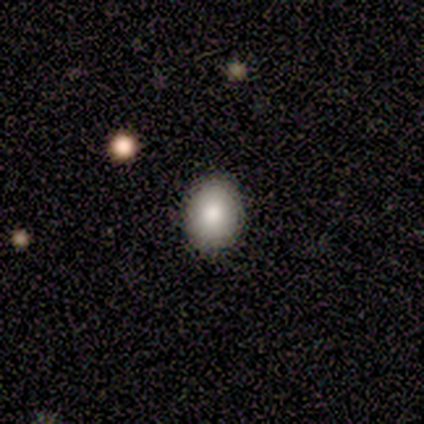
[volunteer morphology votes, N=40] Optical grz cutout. It shows a smooth galaxy with no disk features (85%) that is round (50%, tied with in between). Merging: none (87%).